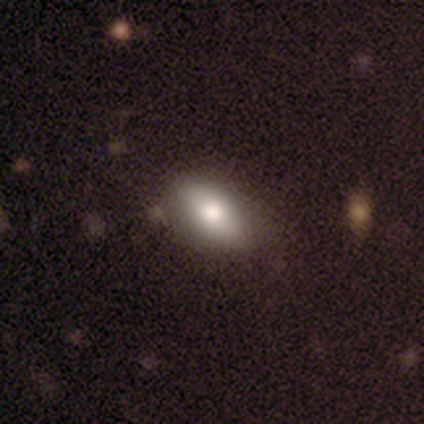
Smooth or featured?
  - smooth: 100% *
  - featured or disk: 0%
  - star or artifact: 0%
How rounded?
  - in between: 80% *
  - round: 20%
  - cigar-shaped: 0%
Merging?
  - none: 80% *
  - major disturbance: 20%
  - minor disturbance: 0%
  - merger: 0%